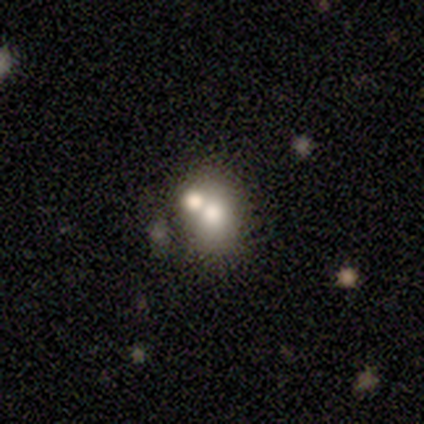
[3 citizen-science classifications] This appears to be a smooth galaxy with no disk features (67%) that is in between round and cigar-shaped (100%). Merging: major disturbance (50%, tied with merger).